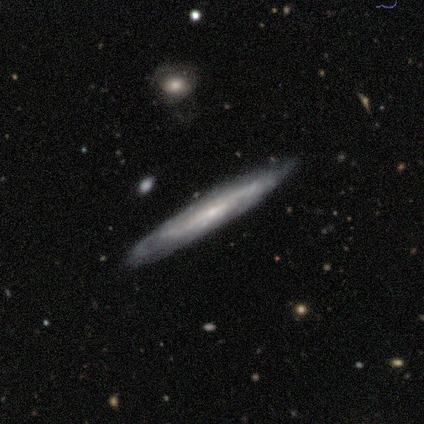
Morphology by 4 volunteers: This is clearly a featured or disk galaxy (100%). It is likely viewed edge-on (75%). Edge-on bulge: likely none (67%). Merging: clearly none (100%).